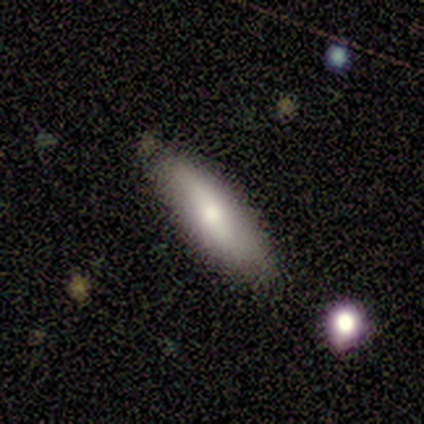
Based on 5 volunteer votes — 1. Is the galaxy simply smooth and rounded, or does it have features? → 60% smooth, 20% featured or disk, 20% star or artifact.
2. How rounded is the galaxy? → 67% cigar-shaped, 33% in between, 0% round.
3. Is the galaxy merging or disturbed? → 75% none, 25% minor disturbance, 0% major disturbance, 0% merger.